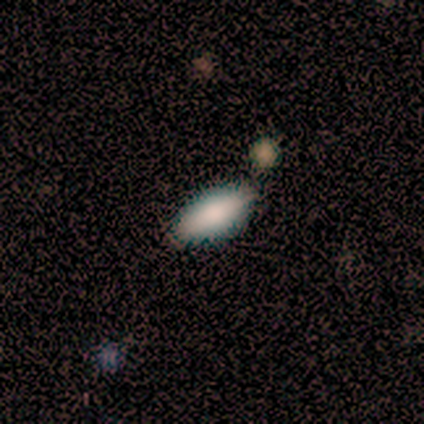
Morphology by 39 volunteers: Smooth or featured?
  - smooth: 82% *
  - featured or disk: 10%
  - star or artifact: 8%
How rounded?
  - in between: 75% *
  - cigar-shaped: 22%
  - round: 3%
Merging?
  - none: 86% *
  - minor disturbance: 8%
  - major disturbance: 3%
  - merger: 3%